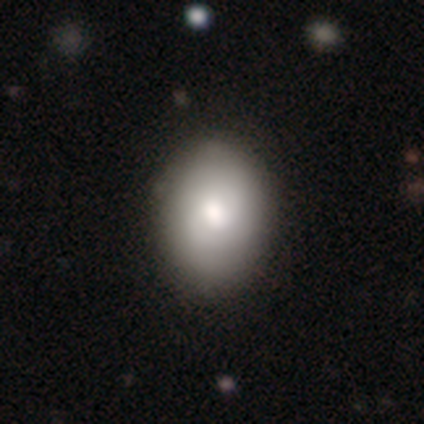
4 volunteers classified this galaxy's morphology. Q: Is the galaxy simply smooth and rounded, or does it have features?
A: smooth — 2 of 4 (50%, tied with featured or disk).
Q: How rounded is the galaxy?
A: round — 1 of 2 (50%, tied with in between).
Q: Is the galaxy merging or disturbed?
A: none — 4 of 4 (100%).